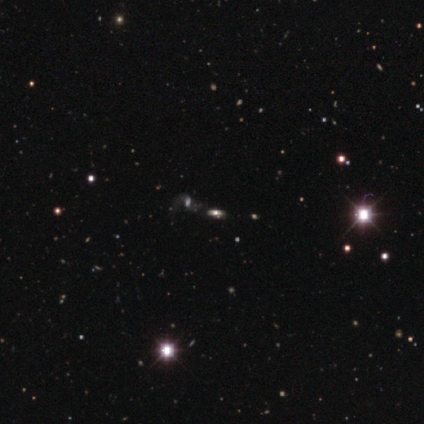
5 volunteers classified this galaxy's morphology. Overall: featured or disk (60%; smooth 20%). Edge-on disk: no (67%; yes 33%). Bar: no (100%). Spiral arms: yes (50%, tied with no). Spiral arm count: 2 (100%). Spiral winding: loose (100%). Bulge size: large (50%, tied with small). Merging: none (50%; major disturbance 25%).